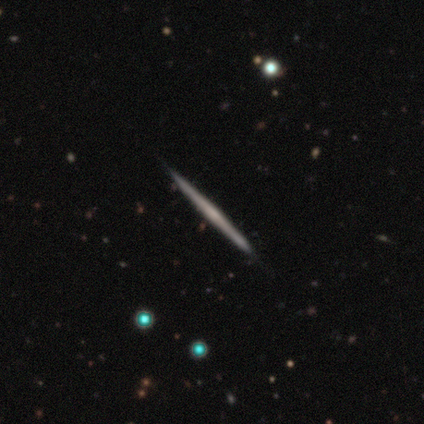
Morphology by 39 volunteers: Volunteers were most divided on "edge-on bulge": none: 74%, rounded: 23%, boxy: 3%. More confident: edge-on disk — yes (97%); merging — none (95%); smooth or featured — featured or disk (82%).